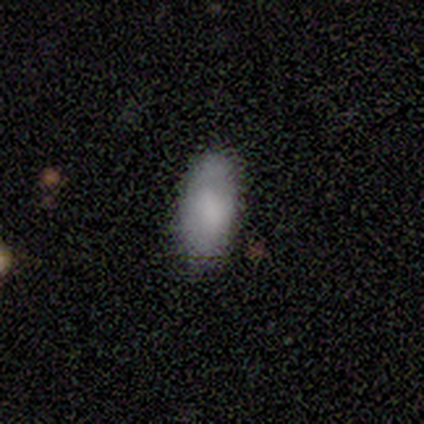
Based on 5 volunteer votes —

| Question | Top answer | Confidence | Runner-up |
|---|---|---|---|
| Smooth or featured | smooth | 80% | star or artifact (20%) |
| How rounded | in between | 75% | cigar-shaped (25%) |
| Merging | none | 75% | minor disturbance (25%) |